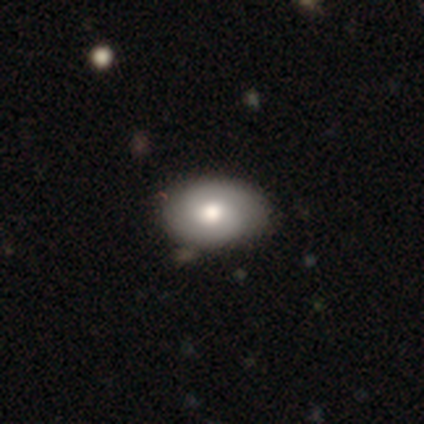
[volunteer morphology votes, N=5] A featured or disk galaxy (60%) with no bar (100%), 2 (100%) tight (100%) spiral arms (100%) and a moderate central bulge (67%). Merging: none (100%).